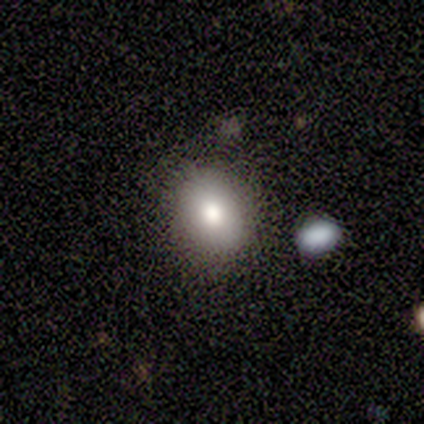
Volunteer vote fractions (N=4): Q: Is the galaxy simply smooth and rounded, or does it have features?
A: smooth — 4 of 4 (100%).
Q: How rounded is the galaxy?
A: round — 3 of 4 (75%).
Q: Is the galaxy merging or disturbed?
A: none — 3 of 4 (75%).